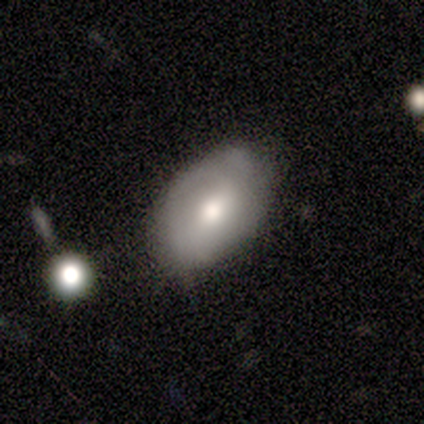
A featured or disk galaxy (60%) with no bar (67%), no spiral arms (67%) and a moderate central bulge (100%).

Vote fractions:
- Smooth or featured? featured or disk: 60% / smooth: 40% / star or artifact: 0%
- Edge-on disk? no: 100% / yes: 0%
- Bar? no: 67% / weak: 33% / strong: 0%
- Spiral arms? no: 67% / yes: 33%
- Bulge size? moderate: 100% / dominant: 0% / large: 0% / small: 0% / none: 0%
- Merging? none: 80% / major disturbance: 20% / minor disturbance: 0% / merger: 0%